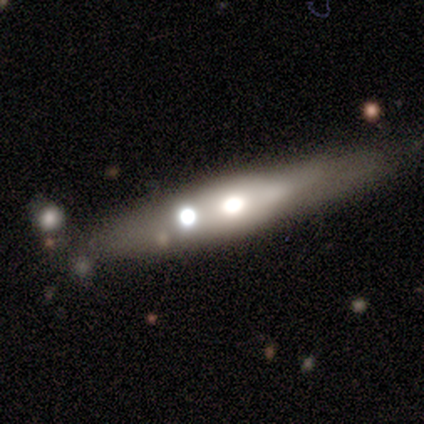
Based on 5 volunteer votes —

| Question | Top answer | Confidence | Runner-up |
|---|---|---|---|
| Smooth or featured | featured or disk | 60% | smooth (40%) |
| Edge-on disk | yes | 67% | no (33%) |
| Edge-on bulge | rounded | 100% | — |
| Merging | none | 80% | minor disturbance (20%) |